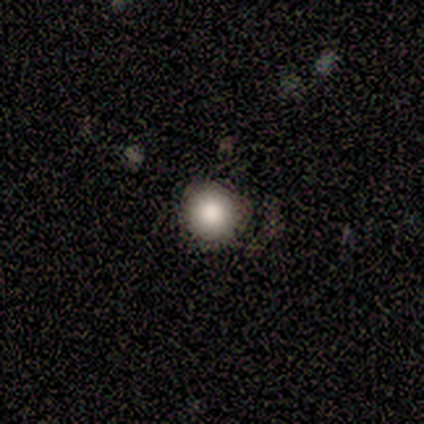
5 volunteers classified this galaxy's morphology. smooth 80%, star or artifact 20%, featured or disk 0%. Down the decision tree: how rounded — round (100%); merging — none (75%).